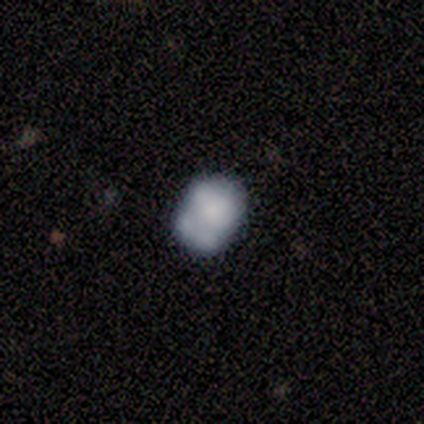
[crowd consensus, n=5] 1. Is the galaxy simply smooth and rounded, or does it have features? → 80% smooth, 20% featured or disk, 0% star or artifact.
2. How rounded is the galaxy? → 50% round (tied), 50% in between (tied), 0% cigar-shaped.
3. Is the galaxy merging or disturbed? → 40% minor disturbance (tied), 40% merger (tied), 20% none, 0% major disturbance.